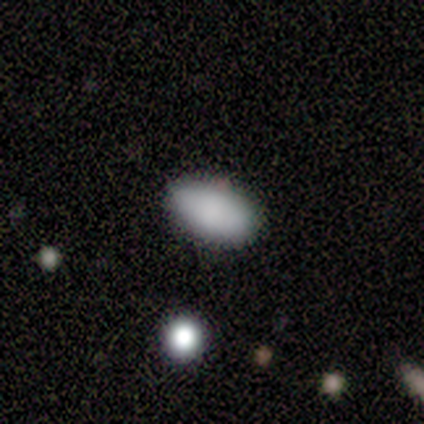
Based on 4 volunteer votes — Smooth or featured? smooth (100%)
How rounded? in between (100%)
Merging? none (100%)